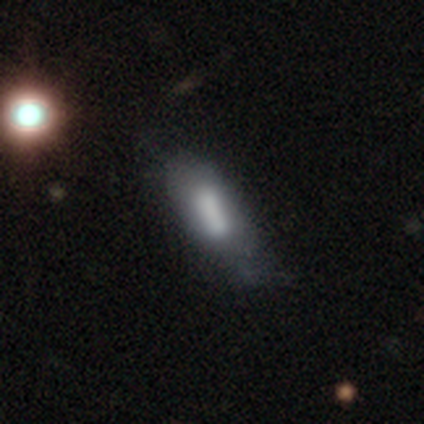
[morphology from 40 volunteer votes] smooth-or-featured: featured or disk: 55% | smooth: 42% | star or artifact: 2%
  disk-edge-on: no: 73% | yes: 27%
    bar: strong: 50% | no: 31% | weak: 19%
    has-spiral-arms: no: 81% | yes: 19%
    bulge-size: large: 38% | moderate: 31% | none: 19% | small: 12% | dominant: 0%
  merging: minor disturbance: 26% | none: 23% | major disturbance: 23% | merger: 5%